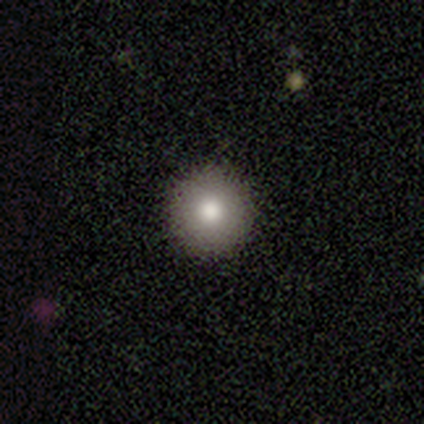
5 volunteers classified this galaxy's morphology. A smooth galaxy with no disk features (60%) that is round (100%). Merging: none (100%).